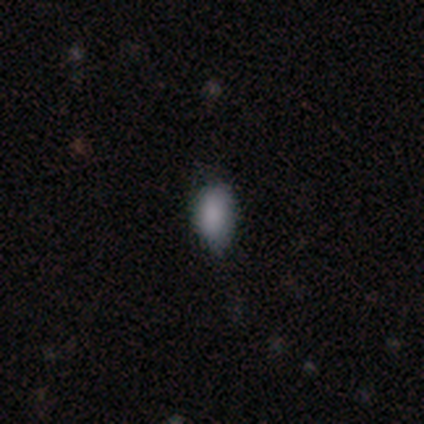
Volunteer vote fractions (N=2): smooth-or-featured: smooth: 100% | featured or disk: 0% | star or artifact: 0%
  how-rounded: in between: 100% | round: 0% | cigar-shaped: 0%
  merging: none: 50% (tied) | minor disturbance: 50% (tied) | major disturbance: 0% | merger: 0%